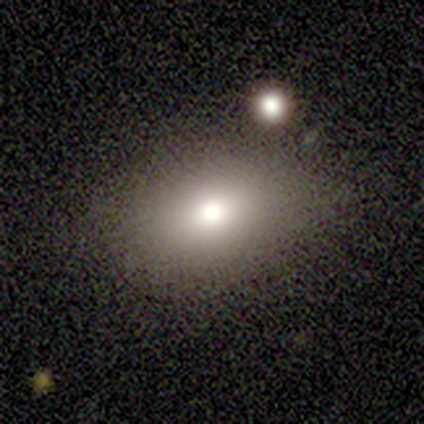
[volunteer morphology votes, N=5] smooth-or-featured: smooth: 60% | featured or disk: 20% | star or artifact: 20%
  how-rounded: in between: 67% | round: 33% | cigar-shaped: 0%
  merging: minor disturbance: 50% | none: 25% | major disturbance: 25% | merger: 0%